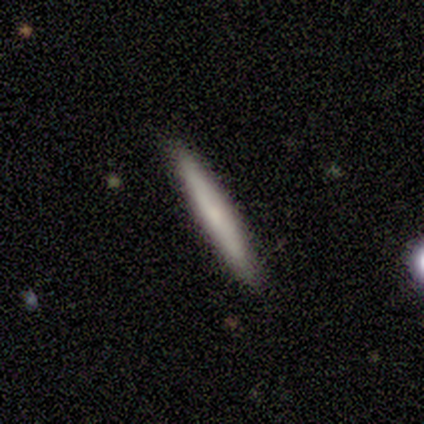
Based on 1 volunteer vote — Morphology: type=smooth (100%); roundness=cigar-shaped (100%); merging=none (100%).